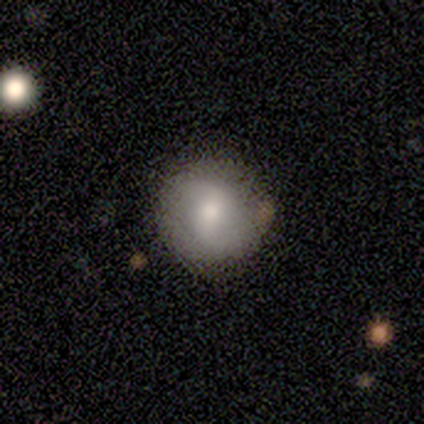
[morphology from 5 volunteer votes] smooth 80%, featured or disk 20%, star or artifact 0%. Down the decision tree: how rounded — round (100%); merging — none (100%).